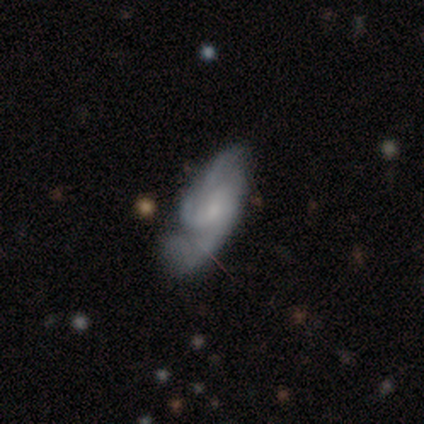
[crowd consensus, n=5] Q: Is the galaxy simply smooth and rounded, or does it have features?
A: featured or disk — 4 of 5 (80%).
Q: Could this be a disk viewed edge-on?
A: no — 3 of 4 (75%).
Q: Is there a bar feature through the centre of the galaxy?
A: weak — 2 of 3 (67%).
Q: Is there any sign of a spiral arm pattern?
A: yes — 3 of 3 (100%).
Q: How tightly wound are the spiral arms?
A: tight — 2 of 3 (67%).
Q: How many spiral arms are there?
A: can't tell — 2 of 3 (67%).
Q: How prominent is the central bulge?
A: small — 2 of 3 (67%).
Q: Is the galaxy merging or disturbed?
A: minor disturbance — 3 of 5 (60%).